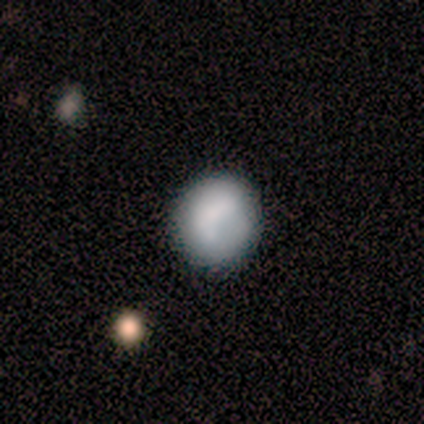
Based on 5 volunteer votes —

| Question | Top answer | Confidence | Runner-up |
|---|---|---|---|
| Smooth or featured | smooth | 80% | star or artifact (20%) |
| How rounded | round | 75% | in between (25%) |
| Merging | none | 75% | minor disturbance (25%) |